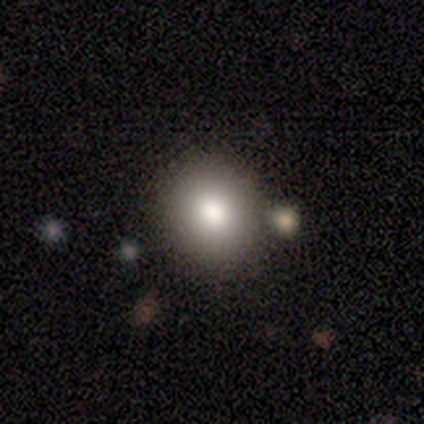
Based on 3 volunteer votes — smooth-or-featured: smooth: 100% | featured or disk: 0% | star or artifact: 0%
  how-rounded: round: 100% | in between: 0% | cigar-shaped: 0%
  merging: none: 67% | merger: 33% | minor disturbance: 0% | major disturbance: 0%